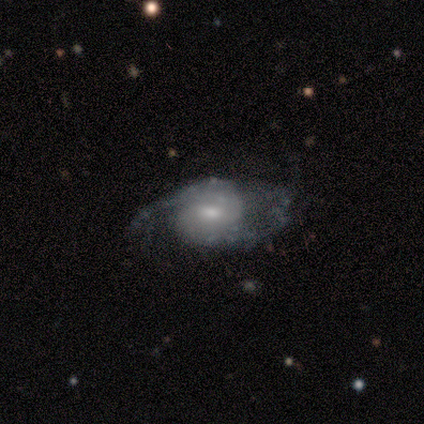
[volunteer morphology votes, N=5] This appears to be a featured or disk galaxy (100%) with a weak bar (60%), 2 (75%) medium (75%) spiral arms (80%) and a small central bulge (60%). Merging: none (80%).